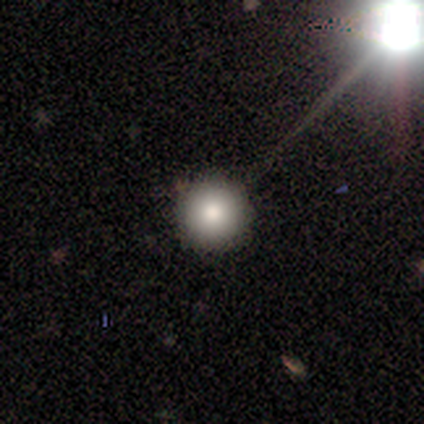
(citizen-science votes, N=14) Smooth or featured: smooth — 86% (featured or disk — 7%)
How rounded: round — 100%
Merging: none — 100%